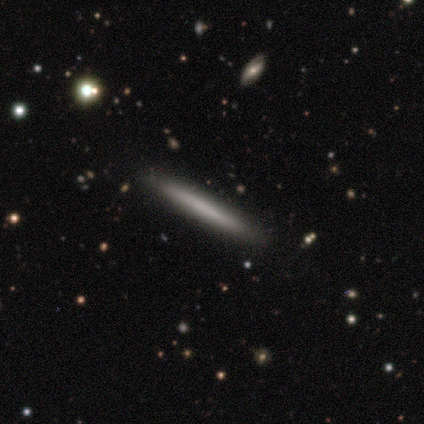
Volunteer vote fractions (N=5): This is likely a smooth galaxy (60%). How rounded: clearly cigar-shaped (100%). Merging: clearly none (100%).